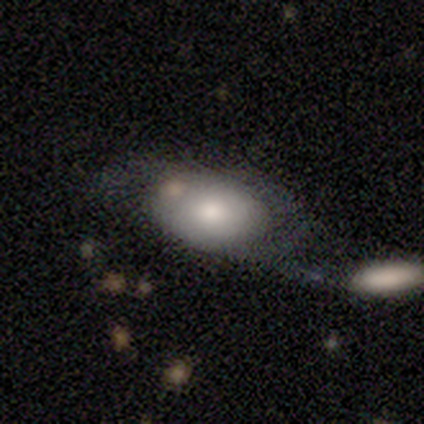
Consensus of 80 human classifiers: Smooth or featured: smooth — 66% (featured or disk — 26%)
How rounded: in between — 83% (round — 17%)
Merging: merger — 31% (none — 27%)